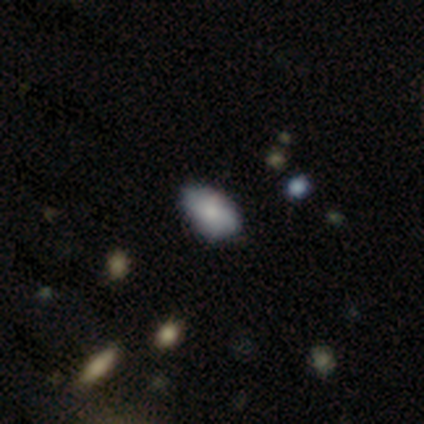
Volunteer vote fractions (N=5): Smooth or featured? 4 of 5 (80%) said smooth. How rounded? 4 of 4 (100%) said in between. Merging? 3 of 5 (60%) said none.